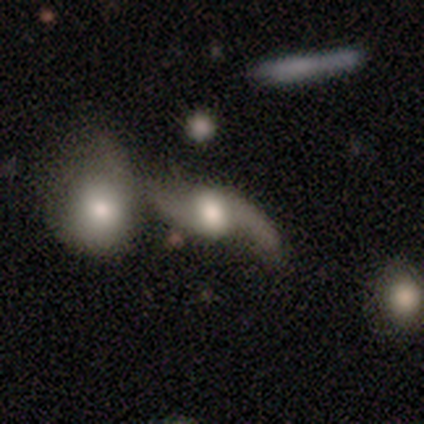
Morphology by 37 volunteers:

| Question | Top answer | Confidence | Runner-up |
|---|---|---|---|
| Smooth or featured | featured or disk | 92% | smooth (8%) |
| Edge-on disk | no | 94% | yes (6%) |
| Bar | no | 62% | weak (22%) |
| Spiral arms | yes | 94% | no (6%) |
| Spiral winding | loose | 93% | tight (3%) |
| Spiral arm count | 2 | 90% | 1 (7%) |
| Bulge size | large | 59% | moderate (31%) |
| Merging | merger | 46% | none (32%) |